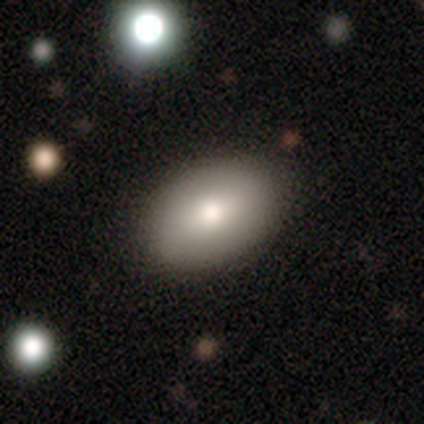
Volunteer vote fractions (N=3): Smooth or featured: smooth — 67% (featured or disk — 33%)
How rounded: in between — 100%
Merging: none — 100%